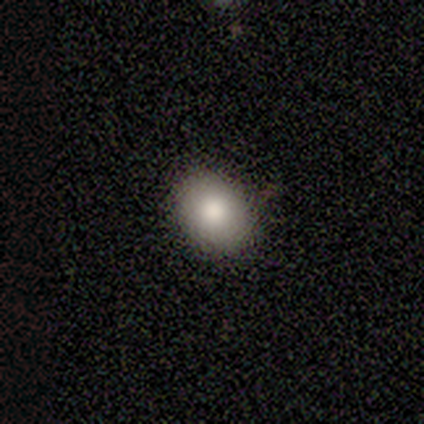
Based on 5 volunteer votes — A smooth galaxy with no disk features (100%) that is in between round and cigar-shaped (80%). Merging: none (100%).